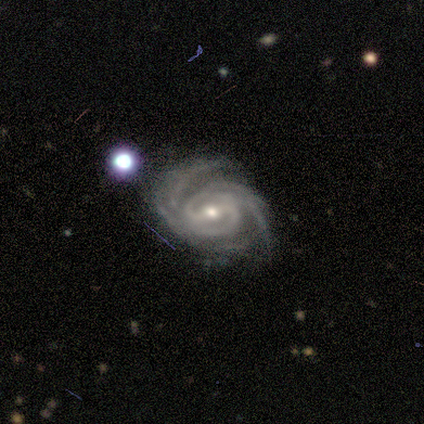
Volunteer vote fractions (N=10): Q: Smooth or featured?
A: featured or disk (100%)
Q: Edge-on disk?
A: no (100%)
Q: Bar?
A: weak (60%); runner-up: strong (30%)
Q: Spiral arms?
A: yes (90%); runner-up: no (10%)
Q: Spiral winding?
A: tight (56%); runner-up: medium (44%)
Q: Spiral arm count?
A: 4 (44%); runner-up: 3 (33%)
Q: Bulge size?
A: moderate (50%); tied with: small (50%)
Q: Merging?
A: none (70%); runner-up: merger (20%)